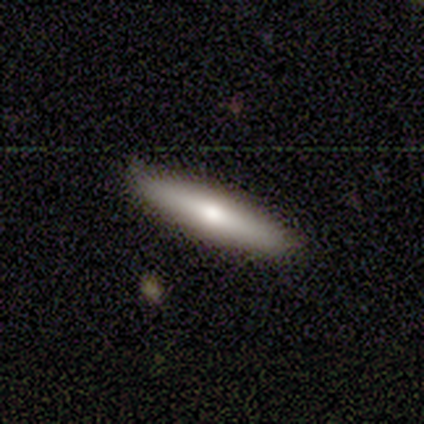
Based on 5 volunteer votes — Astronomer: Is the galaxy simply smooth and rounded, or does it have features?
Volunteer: smooth — 80%.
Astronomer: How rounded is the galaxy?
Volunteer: cigar-shaped — 75%.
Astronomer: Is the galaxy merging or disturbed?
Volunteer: none — 100%.